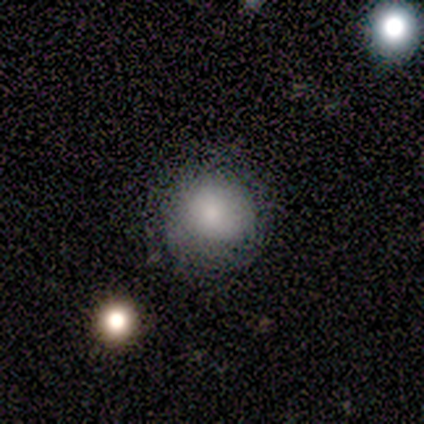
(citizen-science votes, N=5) Q: Smooth or featured?
A: smooth (60%); runner-up: featured or disk (20%)
Q: How rounded?
A: round (100%)
Q: Merging?
A: none (100%)